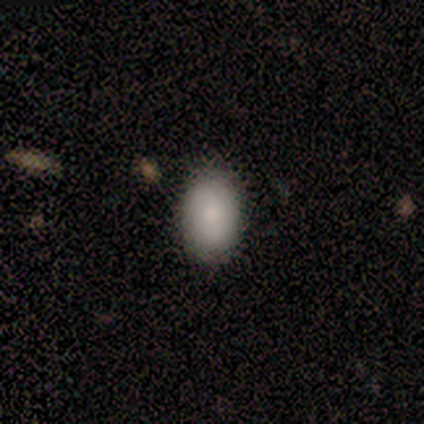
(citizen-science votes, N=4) A smooth galaxy with no disk features (75%) that is in between round and cigar-shaped (100%).

Vote fractions:
- Smooth or featured? smooth: 75% / star or artifact: 25% / featured or disk: 0%
- How rounded? in between: 100% / round: 0% / cigar-shaped: 0%
- Merging? none: 67% / minor disturbance: 33% / major disturbance: 0% / merger: 0%